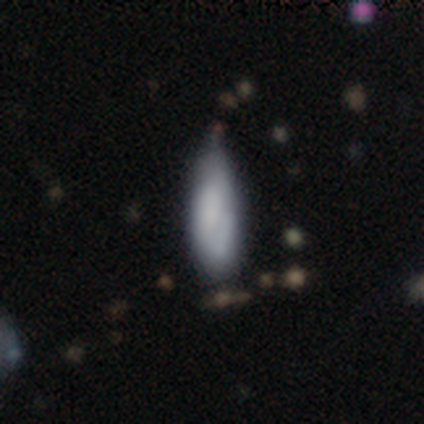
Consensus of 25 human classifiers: Smooth or featured?
  - smooth: 72% *
  - star or artifact: 16%
  - featured or disk: 12%
How rounded?
  - in between: 72% *
  - cigar-shaped: 28%
  - round: 0%
Merging?
  - minor disturbance: 57% *
  - none: 38%
  - major disturbance: 5%
  - merger: 0%